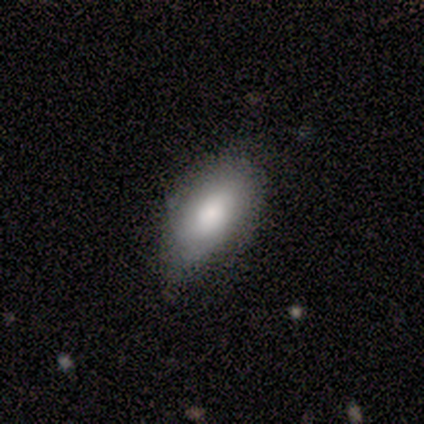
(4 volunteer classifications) Morphology: type=smooth (100%); roundness=in between (100%); merging=minor disturbance (75%).